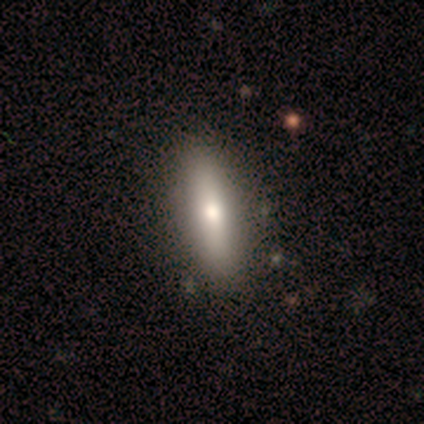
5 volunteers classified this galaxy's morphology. Smooth or featured: featured or disk — 60% (smooth — 40%)
Edge-on disk: yes — 67% (no — 33%)
Edge-on bulge: rounded — 100%
Merging: none — 100%